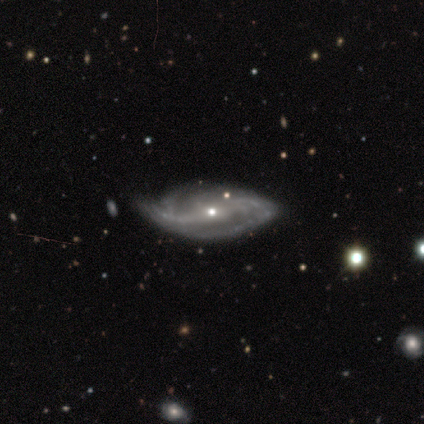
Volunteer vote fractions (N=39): This is clearly a featured or disk galaxy (95%). It is clearly not viewed edge-on (95%). Bar: possibly no (54%). Spiral arm pattern: clearly yes (97%). Spiral arm count: likely 2 (65%). Spiral winding: marginally medium (35%). Central bulge: possibly small (51%). Merging: marginally none (34%).